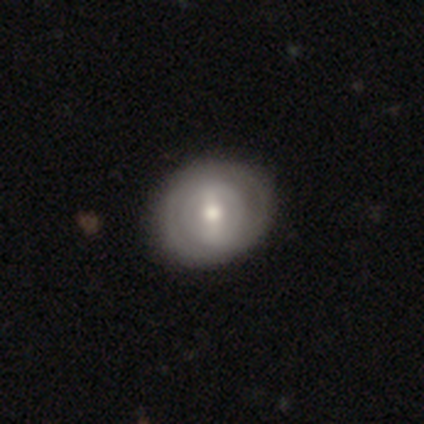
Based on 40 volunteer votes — smooth_or_featured: featured or disk (p=0.60) [alt: smooth p=0.38]
disk_edge_on: no (p=1.00)
bar: strong (p=0.42) [tied with: weak p=0.42]
has_spiral_arms: yes (p=0.71) [alt: no p=0.29]
spiral_winding: tight (p=0.82) [alt: loose p=0.12]
spiral_arm_count: 2 (p=0.53) [alt: can't tell p=0.41]
bulge_size: moderate (p=0.75) [alt: small p=0.12]
merging: none (p=0.49) [alt: minor disturbance p=0.05]